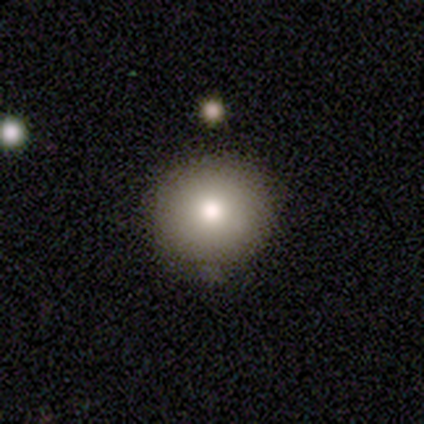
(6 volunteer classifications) smooth 100%, featured or disk 0%, star or artifact 0%. Down the decision tree: how rounded — round (100%); merging — none (83%).